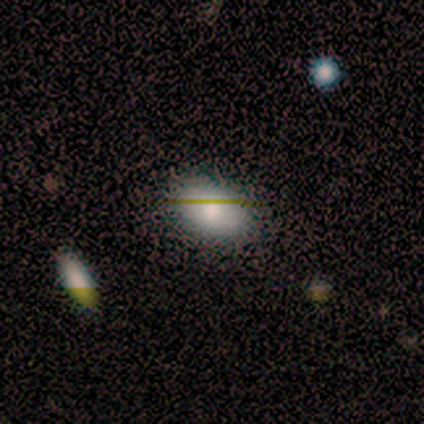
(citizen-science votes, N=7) smooth-or-featured: smooth: 71% | featured or disk: 29% | star or artifact: 0%
  how-rounded: in between: 100% | round: 0% | cigar-shaped: 0%
  merging: none: 86% | minor disturbance: 14% | major disturbance: 0% | merger: 0%